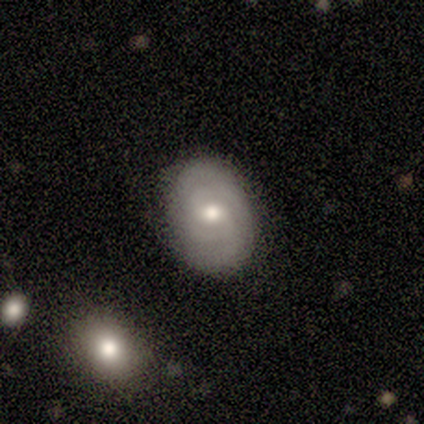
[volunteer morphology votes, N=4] This appears to be a featured or disk galaxy (75%) with no bar (100%), tight (67%) spiral arms (100%) and a small central bulge (67%). Merging: none (100%).